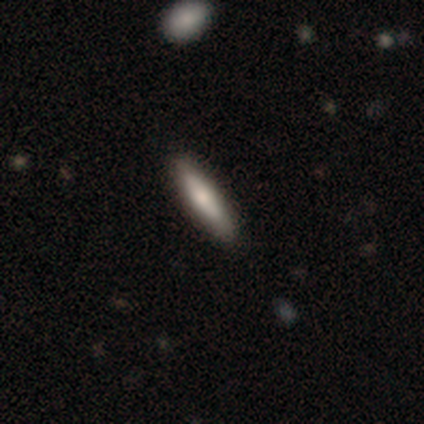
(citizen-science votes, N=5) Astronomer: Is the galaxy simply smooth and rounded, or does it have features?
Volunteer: smooth — 80%.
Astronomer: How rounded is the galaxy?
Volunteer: cigar-shaped — 100%.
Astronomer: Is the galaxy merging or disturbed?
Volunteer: none — 100%.